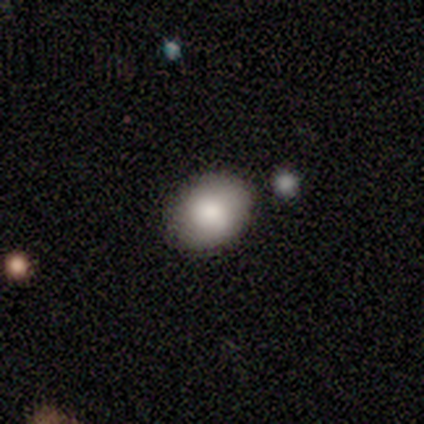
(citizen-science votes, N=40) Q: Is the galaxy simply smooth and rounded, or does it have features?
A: smooth — 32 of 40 (80%).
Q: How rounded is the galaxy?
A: in between — 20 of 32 (62%).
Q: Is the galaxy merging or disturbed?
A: none — 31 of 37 (84%).